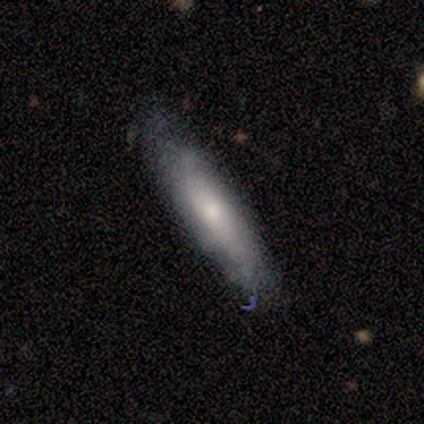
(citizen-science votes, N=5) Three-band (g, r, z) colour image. It shows a smooth galaxy with no disk features (60%) that is cigar-shaped (100%). Merging: minor disturbance (100%).